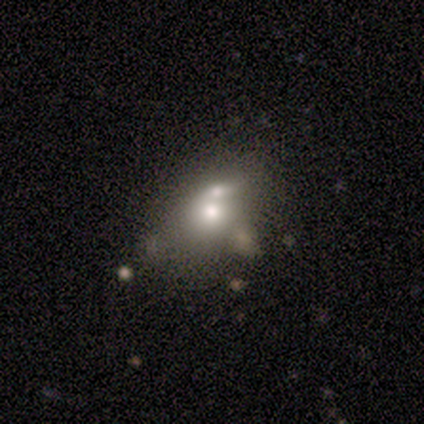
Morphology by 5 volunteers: Smooth or featured: smooth — 80% (featured or disk — 20%)
How rounded: in between — 75% (round — 25%)
Merging: merger — 60% (minor disturbance — 40%)